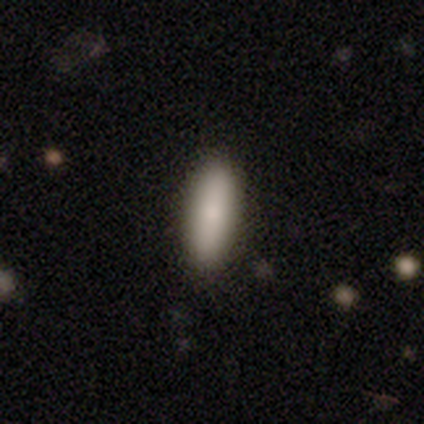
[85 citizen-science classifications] Smooth or featured? smooth (85%)
How rounded? cigar-shaped (51%)
Merging? none (92%)